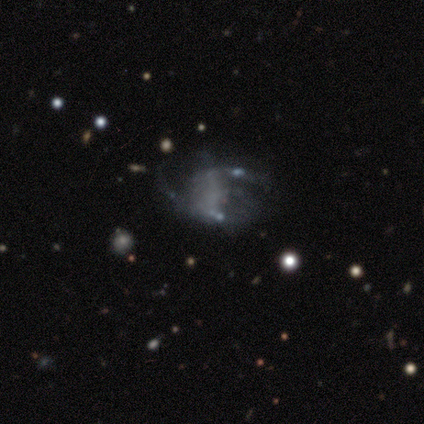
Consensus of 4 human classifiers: smooth-or-featured: featured or disk: 50% (tied) | star or artifact: 50% (tied) | smooth: 0%
  disk-edge-on: no: 100% | yes: 0%
    bar: no: 100% | strong: 0% | weak: 0%
    has-spiral-arms: no: 100% | yes: 0%
    bulge-size: none: 100% | dominant: 0% | large: 0% | moderate: 0% | small: 0%
  merging: none: 50% (tied) | merger: 50% (tied) | minor disturbance: 0% | major disturbance: 0%